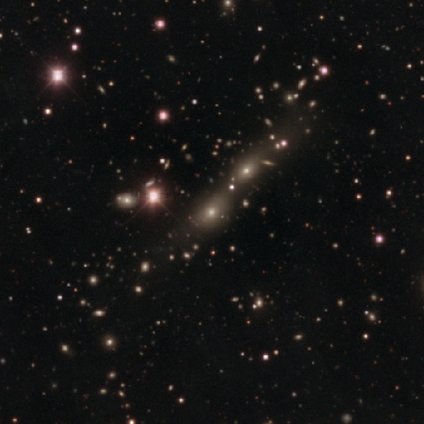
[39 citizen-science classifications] A star or artifact, not a galaxy (46%).